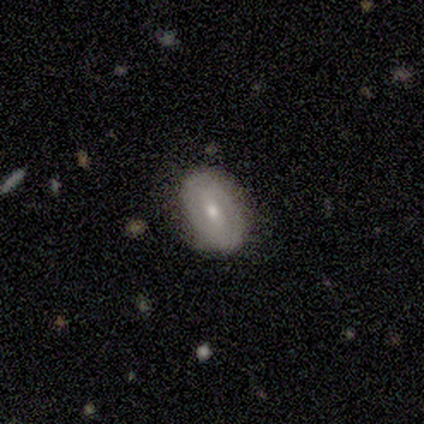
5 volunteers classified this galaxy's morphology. A smooth galaxy with no disk features (100%) that is in between round and cigar-shaped (100%).

Vote fractions:
- Smooth or featured? smooth: 100% / featured or disk: 0% / star or artifact: 0%
- How rounded? in between: 100% / round: 0% / cigar-shaped: 0%
- Merging? none: 60% / minor disturbance: 40% / major disturbance: 0% / merger: 0%